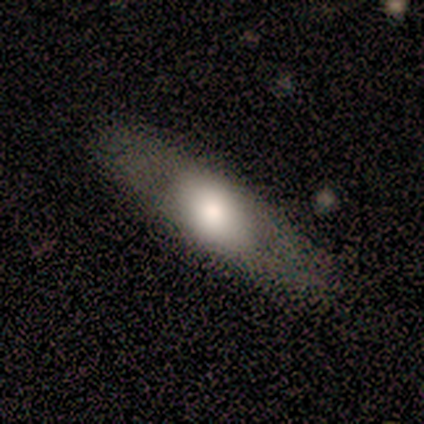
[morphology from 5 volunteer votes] Smooth or featured: smooth — 60% (featured or disk — 40%)
How rounded: in between — 67% (cigar-shaped — 33%)
Merging: none — 60% (major disturbance — 20%)